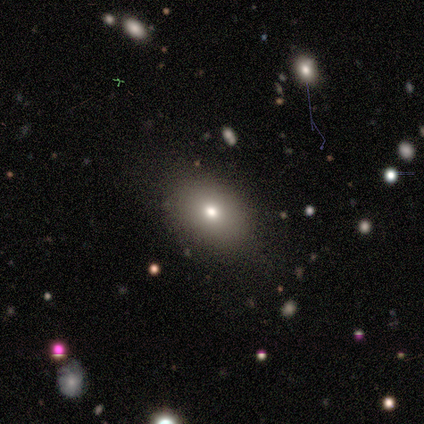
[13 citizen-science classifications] smooth-or-featured: smooth: 77% | star or artifact: 15% | featured or disk: 8%
  how-rounded: in between: 90% | round: 10% | cigar-shaped: 0%
  merging: none: 73% | minor disturbance: 27% | major disturbance: 0% | merger: 0%